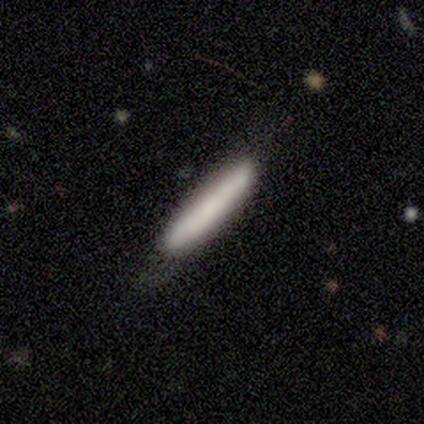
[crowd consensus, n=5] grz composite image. It shows a smooth galaxy with no disk features (80%) that is cigar-shaped (100%). Merging: none (80%).